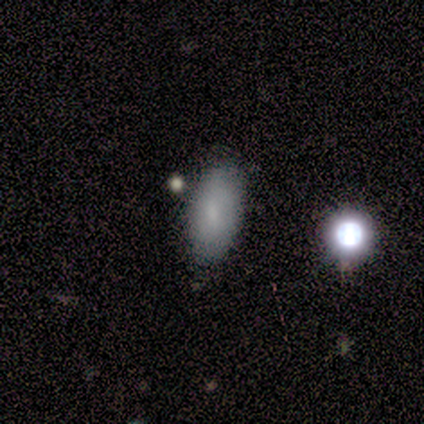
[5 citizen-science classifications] smooth 80%, star or artifact 20%, featured or disk 0%. Down the decision tree: how rounded — in between (100%); merging — none (100%).